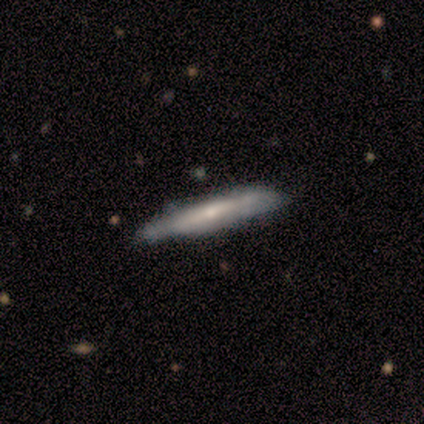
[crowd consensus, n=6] smooth_or_featured: featured or disk (p=0.67) [alt: smooth p=0.17]
disk_edge_on: yes (p=0.75) [alt: no p=0.25]
edge_on_bulge: boxy (p=0.33) [tied with: none p=0.33, rounded p=0.33]
merging: none (p=0.80) [alt: minor disturbance p=0.20]